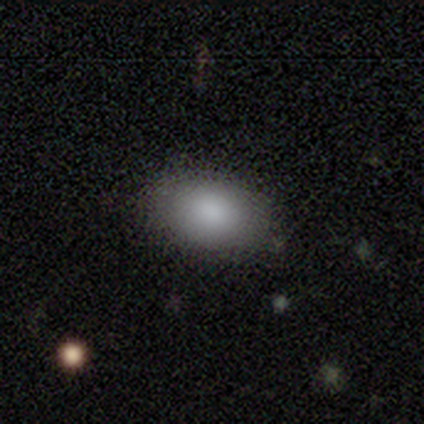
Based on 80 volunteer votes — Smooth or featured?
  - smooth: 88% *
  - featured or disk: 8%
  - star or artifact: 5%
How rounded?
  - in between: 91% *
  - round: 9%
  - cigar-shaped: 0%
Merging?
  - none: 53% *
  - minor disturbance: 12%
  - major disturbance: 1%
  - merger: 0%